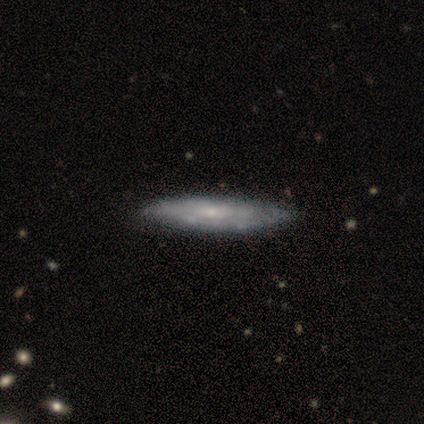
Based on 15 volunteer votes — This appears to be a featured or disk galaxy (60%) with no bar (86%), tight (100%) spiral arms (71%) and a small central bulge (71%). Merging: none (67%).